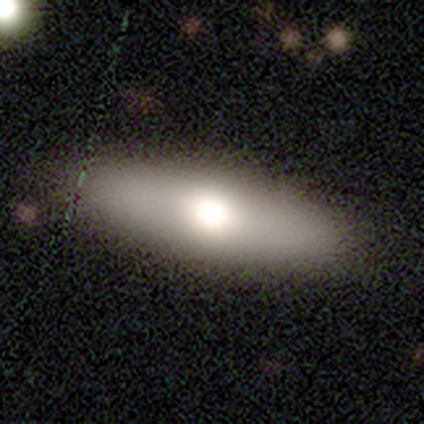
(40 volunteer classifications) smooth 70%, featured or disk 22%, star or artifact 8%. Down the decision tree: how rounded — in between (71%); merging — none (51%).